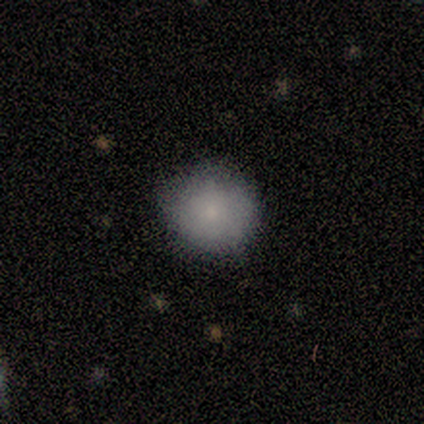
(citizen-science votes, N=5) Q: Smooth or featured?
A: smooth (100%)
Q: How rounded?
A: round (100%)
Q: Merging?
A: none (100%)